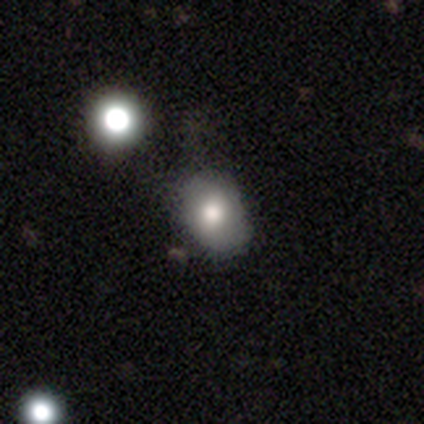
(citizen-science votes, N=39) Smooth or featured: smooth — 77% (featured or disk — 15%)
How rounded: in between — 70% (round — 30%)
Merging: none — 53% (minor disturbance — 28%)